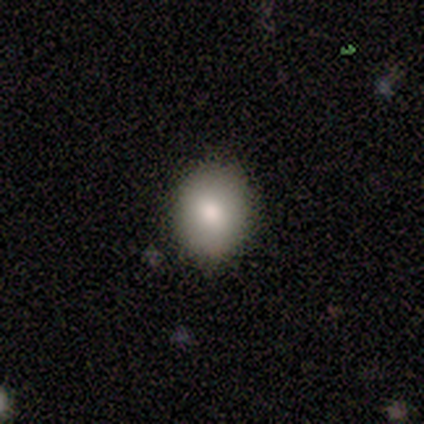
A smooth galaxy with no disk features (80%) that is round (75%).

Vote fractions:
- Smooth or featured? smooth: 80% / featured or disk: 20% / star or artifact: 0%
- How rounded? round: 75% / in between: 25% / cigar-shaped: 0%
- Merging? none: 100% / minor disturbance: 0% / major disturbance: 0% / merger: 0%